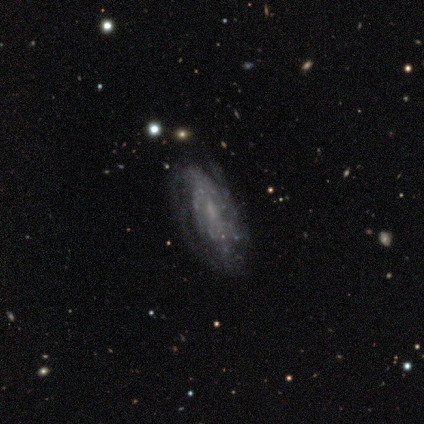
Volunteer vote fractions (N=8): smooth-or-featured: featured or disk: 88% | smooth: 12% | star or artifact: 0%
  disk-edge-on: no: 100% | yes: 0%
    bar: weak: 71% | no: 29% | strong: 0%
    has-spiral-arms: yes: 71% | no: 29%
      spiral-winding: tight: 60% | medium: 40% | loose: 0%
      spiral-arm-count: 3: 40% (tied) | can't tell: 40% (tied) | more than 4: 20% | 1: 0% | 2: 0% | 4: 0%
    bulge-size: none: 43% | moderate: 29% | small: 29% | dominant: 0% | large: 0%
  merging: none: 62% | minor disturbance: 25% | major disturbance: 12% | merger: 0%